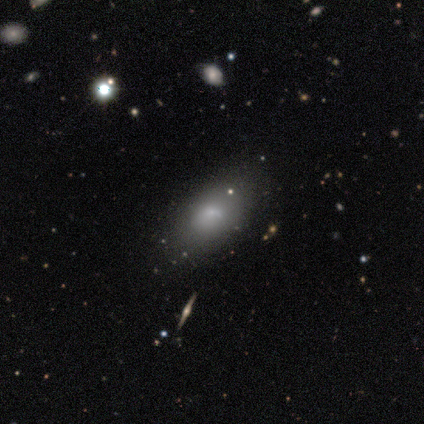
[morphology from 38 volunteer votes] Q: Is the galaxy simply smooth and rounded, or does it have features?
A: smooth — 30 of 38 (79%).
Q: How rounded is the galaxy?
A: in between — 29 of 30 (97%).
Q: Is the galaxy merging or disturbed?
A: none — 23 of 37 (62%).